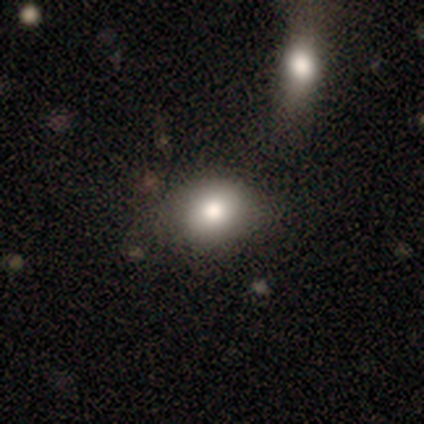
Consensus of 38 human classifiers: Smooth or featured: smooth — 68% (featured or disk — 21%)
How rounded: in between — 58% (round — 42%)
Merging: none — 76% (minor disturbance — 9%)